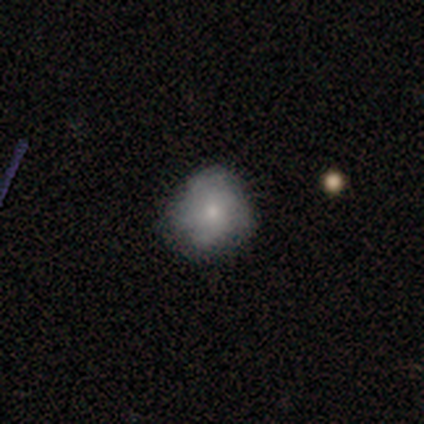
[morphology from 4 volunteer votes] Smooth or featured?
  - smooth: 100% *
  - featured or disk: 0%
  - star or artifact: 0%
How rounded?
  - round: 75% *
  - in between: 25%
  - cigar-shaped: 0%
Merging?
  - none: 75% *
  - minor disturbance: 25%
  - major disturbance: 0%
  - merger: 0%